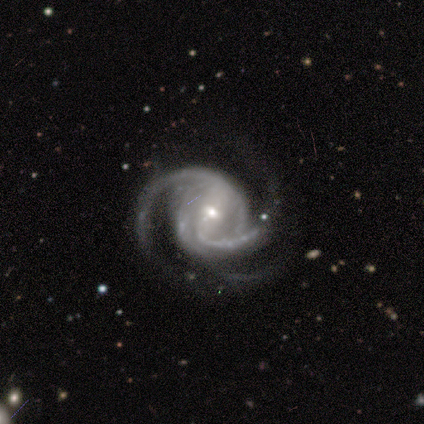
Q: Smooth or featured?
A: featured or disk (100%)
Q: Edge-on disk?
A: no (100%)
Q: Bar?
A: strong (40%); tied with: weak (40%)
Q: Spiral arms?
A: yes (100%)
Q: Spiral winding?
A: medium (60%); runner-up: tight (40%)
Q: Spiral arm count?
A: 2 (80%); runner-up: 3 (20%)
Q: Bulge size?
A: small (100%)
Q: Merging?
A: none (60%); runner-up: minor disturbance (20%)